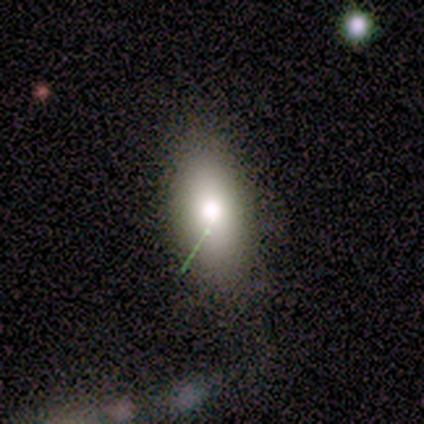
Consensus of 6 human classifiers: Smooth or featured?
  - smooth: 67% *
  - featured or disk: 17%
  - star or artifact: 17%
How rounded?
  - in between: 100% *
  - round: 0%
  - cigar-shaped: 0%
Merging?
  - none: 100% *
  - minor disturbance: 0%
  - major disturbance: 0%
  - merger: 0%